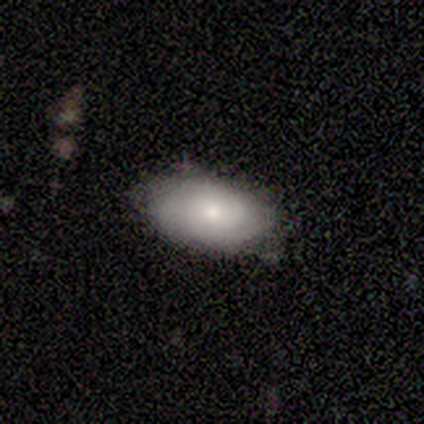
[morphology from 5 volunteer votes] Smooth or featured: smooth — 60% (featured or disk — 40%)
How rounded: in between — 67% (cigar-shaped — 33%)
Merging: none — 100%